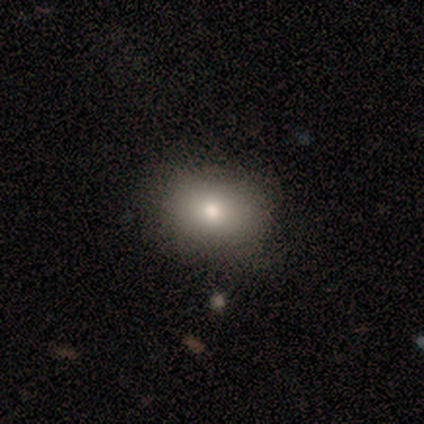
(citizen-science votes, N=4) This appears to be a smooth galaxy with no disk features (75%) that is in between round and cigar-shaped (67%). Merging: none (100%).